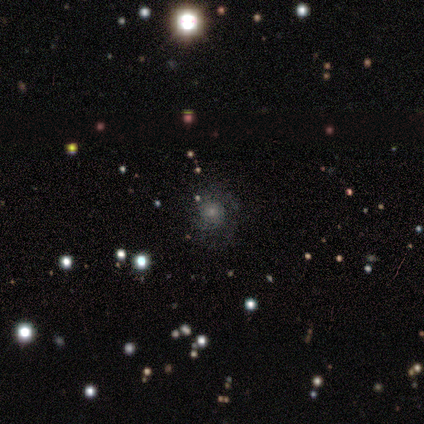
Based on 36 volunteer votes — Volunteers were most divided on "smooth or featured": smooth: 39%, star or artifact: 33%, featured or disk: 28%. More confident: how rounded — round (86%); merging — none (83%).